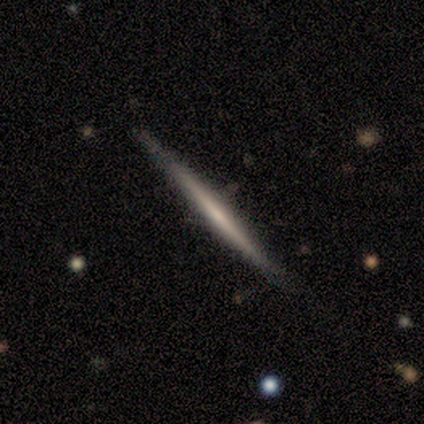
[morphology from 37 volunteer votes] type=featured or disk (57%); edge-on=yes (90%); edge-on bulge=none (68%); merging=none (81%).